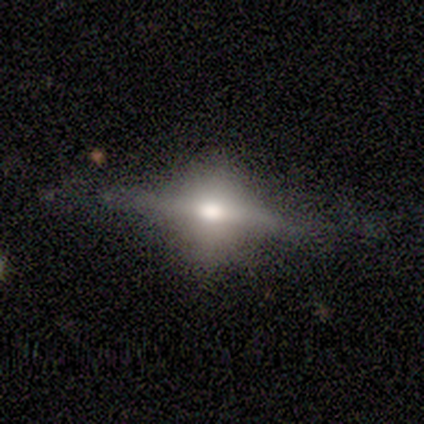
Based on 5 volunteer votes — Smooth or featured? 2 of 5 (40%, tied with featured or disk) said smooth. How rounded? 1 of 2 (50%, tied with in between) said round. Merging? 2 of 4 (50%) said none.